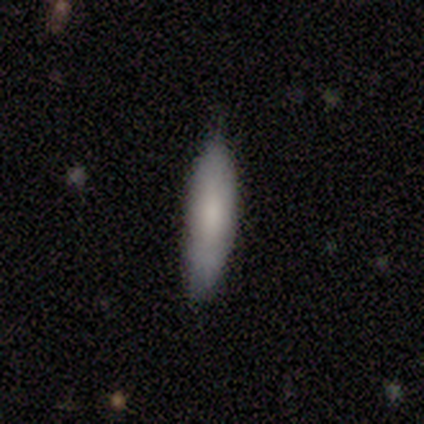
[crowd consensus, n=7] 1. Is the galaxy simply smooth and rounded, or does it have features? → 86% smooth, 14% featured or disk, 0% star or artifact.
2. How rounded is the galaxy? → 83% cigar-shaped, 17% in between, 0% round.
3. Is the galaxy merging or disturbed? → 86% none, 14% minor disturbance, 0% major disturbance, 0% merger.